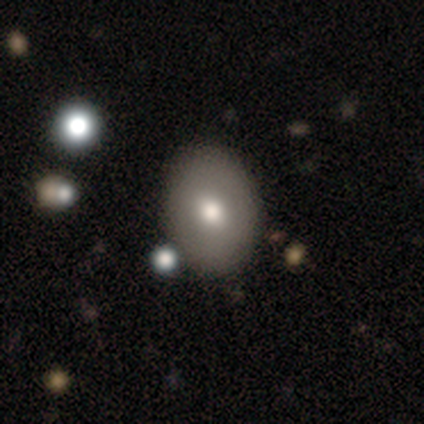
This is likely a smooth galaxy (67%). How rounded: clearly in between (100%). Merging: clearly none (100%).